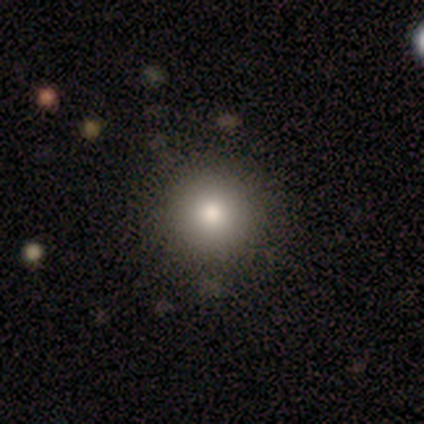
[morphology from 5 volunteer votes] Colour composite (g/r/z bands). It shows a smooth galaxy with no disk features (100%) that is round (100%). Merging: none (100%).